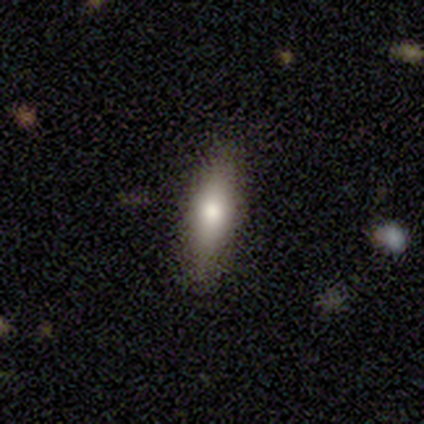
Smooth or featured: smooth — 58% (featured or disk — 34%)
How rounded: cigar-shaped — 55% (in between — 45%)
Merging: none — 83% (minor disturbance — 11%)